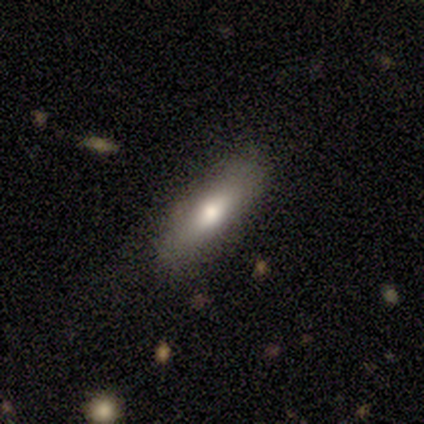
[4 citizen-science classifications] smooth_or_featured: smooth (p=1.00)
how_rounded: in between (p=0.50) [tied with: cigar-shaped p=0.50]
merging: none (p=0.75) [alt: minor disturbance p=0.25]